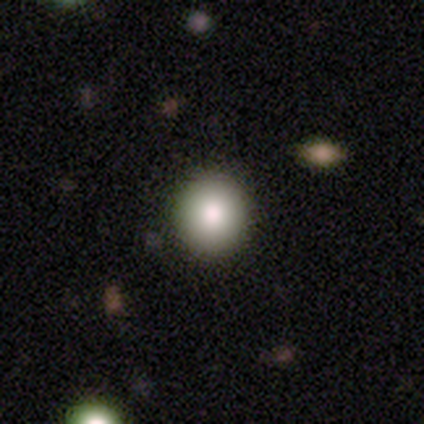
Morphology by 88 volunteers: This is clearly a smooth galaxy (82%). How rounded: clearly round (90%). Merging: clearly none (93%).